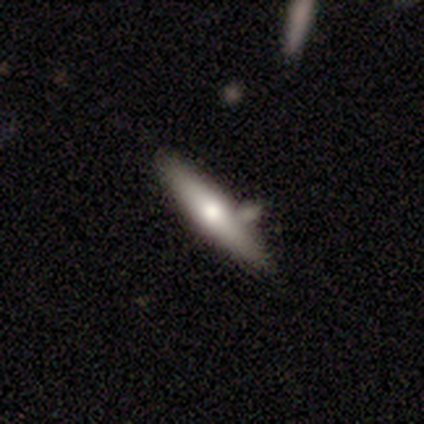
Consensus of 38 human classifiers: Overall: featured or disk (53%; smooth 39%). Edge-on disk: yes (85%). Edge-on bulge: rounded (71%). Merging: none (80%).